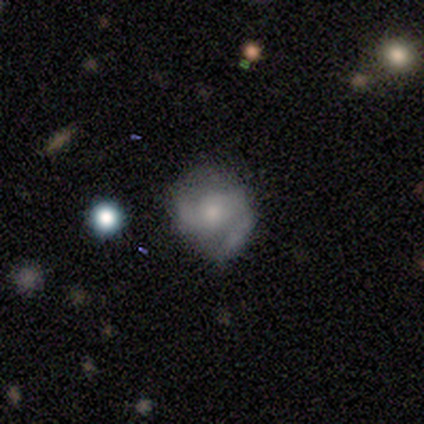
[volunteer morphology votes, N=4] A smooth galaxy with no disk features (50%, tied with featured or disk) that is round (50%, tied with in between). Merging: none (50%, tied with minor disturbance).